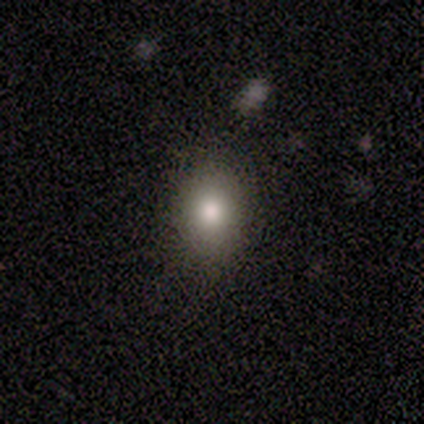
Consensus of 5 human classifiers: Smooth or featured: smooth — 80% (star or artifact — 20%)
How rounded: in between — 75% (round — 25%)
Merging: none — 75% (major disturbance — 25%)